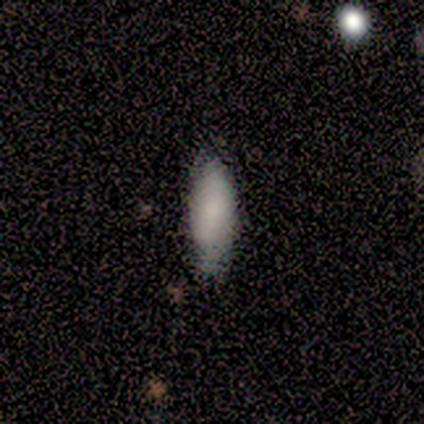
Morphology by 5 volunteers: This is clearly a smooth galaxy (80%). How rounded: clearly in between (100%). Merging: possibly none (50%).